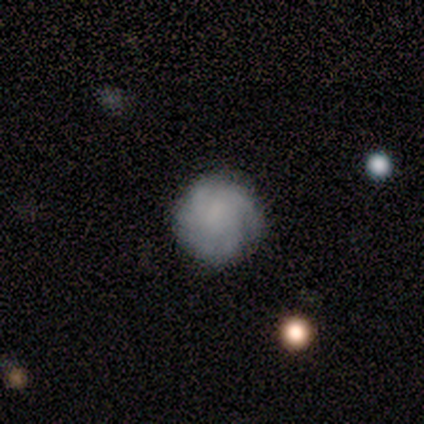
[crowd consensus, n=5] Morphology: type=featured or disk (80%); edge-on=no (100%); bar=no (75%); spiral arms=yes (100%); winding=medium (75%); arm count=2 (25%, tied with 3, 4 and can't tell); bulge=none (100%); merging=none (80%).